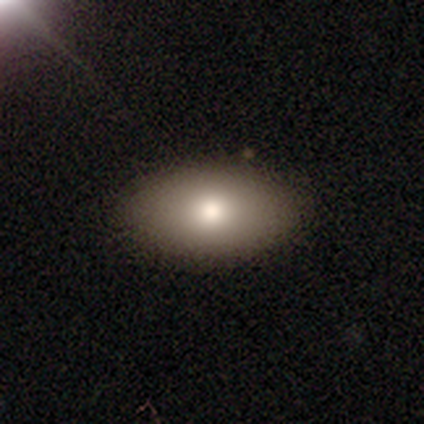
Smooth or featured? smooth (100%)
How rounded? in between (100%)
Merging? none (100%)